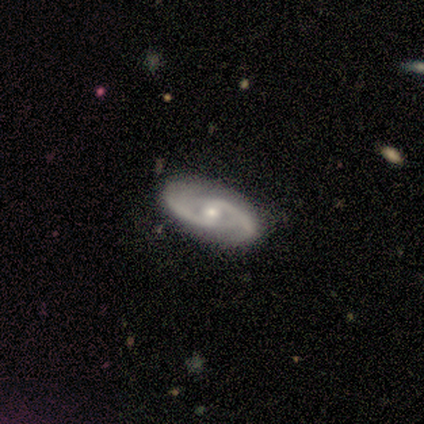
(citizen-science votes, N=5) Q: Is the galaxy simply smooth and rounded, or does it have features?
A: featured or disk — 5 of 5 (100%).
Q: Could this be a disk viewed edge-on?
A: no — 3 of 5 (60%).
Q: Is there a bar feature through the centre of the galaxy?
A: strong — 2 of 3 (67%).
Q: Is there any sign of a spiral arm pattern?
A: yes — 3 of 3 (100%).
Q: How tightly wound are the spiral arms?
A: medium — 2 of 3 (67%).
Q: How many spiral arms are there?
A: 2 — 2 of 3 (67%).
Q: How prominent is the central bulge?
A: moderate — 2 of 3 (67%).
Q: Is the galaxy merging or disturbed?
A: none — 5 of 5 (100%).